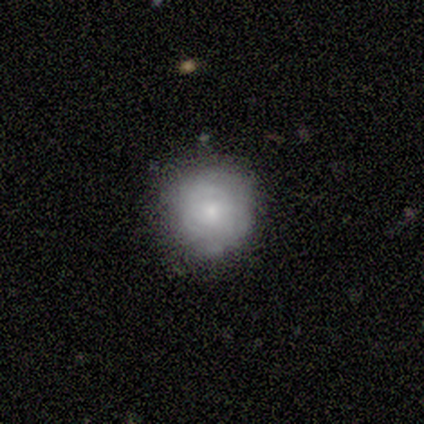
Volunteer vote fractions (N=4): Overall: smooth (100%). How rounded: round (100%). Merging: none (100%).